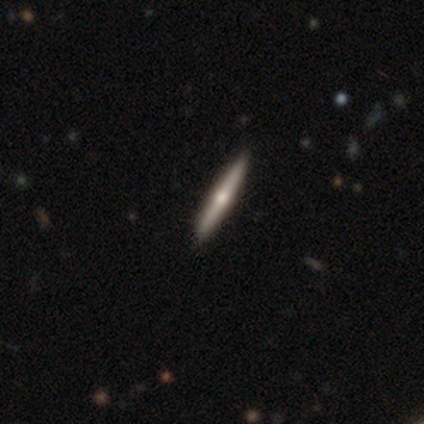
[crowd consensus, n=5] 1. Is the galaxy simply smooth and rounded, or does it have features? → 60% featured or disk, 40% smooth, 0% star or artifact.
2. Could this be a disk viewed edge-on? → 100% yes, 0% no.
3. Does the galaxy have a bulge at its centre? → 100% rounded, 0% boxy, 0% none.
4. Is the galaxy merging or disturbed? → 100% none, 0% minor disturbance, 0% major disturbance, 0% merger.